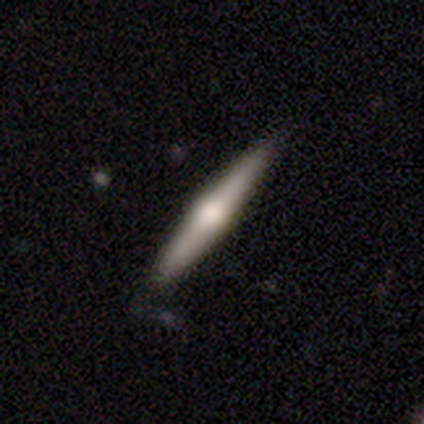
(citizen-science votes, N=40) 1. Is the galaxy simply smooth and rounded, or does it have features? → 75% featured or disk, 22% smooth, 2% star or artifact.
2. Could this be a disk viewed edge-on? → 100% yes, 0% no.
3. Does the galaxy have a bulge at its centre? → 97% rounded, 3% none, 0% boxy.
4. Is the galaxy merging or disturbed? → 59% none, 3% minor disturbance, 3% merger, 0% major disturbance.